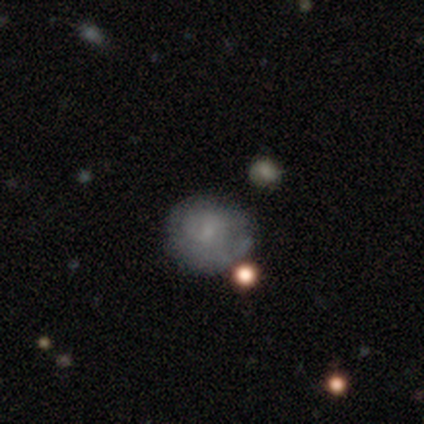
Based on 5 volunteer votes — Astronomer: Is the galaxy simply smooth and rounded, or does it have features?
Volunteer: featured or disk — 80%.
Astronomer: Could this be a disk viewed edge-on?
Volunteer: no — 100%.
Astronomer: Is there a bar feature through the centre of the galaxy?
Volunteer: no — 75%.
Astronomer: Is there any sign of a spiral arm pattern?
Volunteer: no — 75%.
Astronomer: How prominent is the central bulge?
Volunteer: none — 75%.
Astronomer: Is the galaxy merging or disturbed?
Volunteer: minor disturbance — 80%.